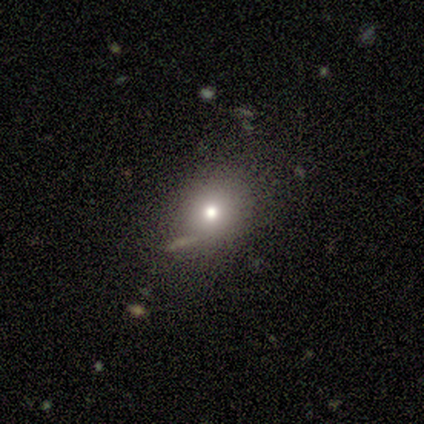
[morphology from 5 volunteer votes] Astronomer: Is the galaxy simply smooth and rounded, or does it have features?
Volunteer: smooth — 60%.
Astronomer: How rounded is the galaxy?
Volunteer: round — 100%.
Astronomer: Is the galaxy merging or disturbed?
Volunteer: none — 75%.